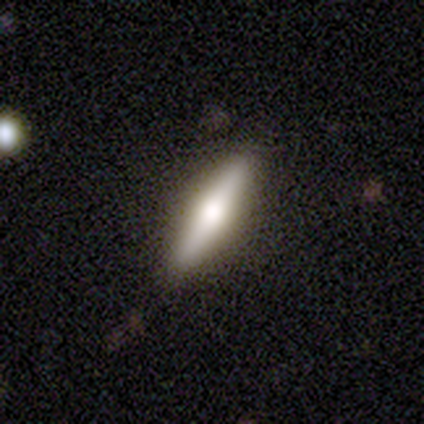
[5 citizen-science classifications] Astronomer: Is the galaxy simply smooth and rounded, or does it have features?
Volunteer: smooth — 60% (runner-up: featured or disk, 40%).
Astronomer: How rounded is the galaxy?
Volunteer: cigar-shaped — 100%.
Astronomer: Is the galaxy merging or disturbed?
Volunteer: none — 80%.